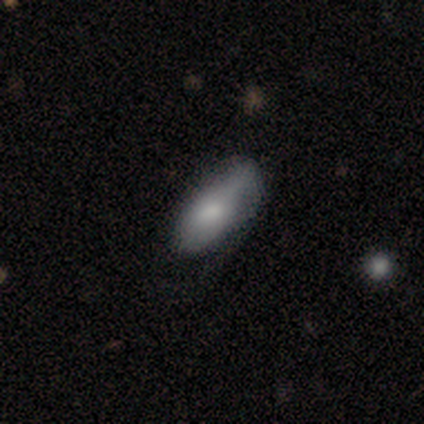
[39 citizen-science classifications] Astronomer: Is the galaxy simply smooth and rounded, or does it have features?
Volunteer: smooth — 85%.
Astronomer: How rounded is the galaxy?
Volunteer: in between — 79%.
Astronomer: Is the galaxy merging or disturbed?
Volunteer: minor disturbance — 51% (runner-up: none, 35%).